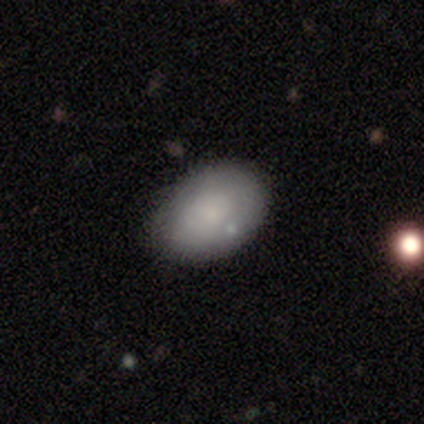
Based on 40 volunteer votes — Volunteers were most divided on "smooth or featured": smooth: 68%, featured or disk: 32%, star or artifact: 0%. More confident: how rounded — in between (85%); merging — none (55%).